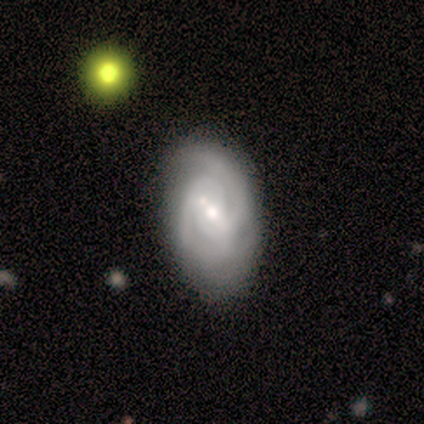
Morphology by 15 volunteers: Smooth or featured? featured or disk (80%)
Edge-on disk? no (100%)
Bar? weak (75%)
Spiral arms? yes (83%)
Spiral winding? medium (60%)
Spiral arm count? 2 (50%)
Bulge size? small (58%)
Merging? none (60%)